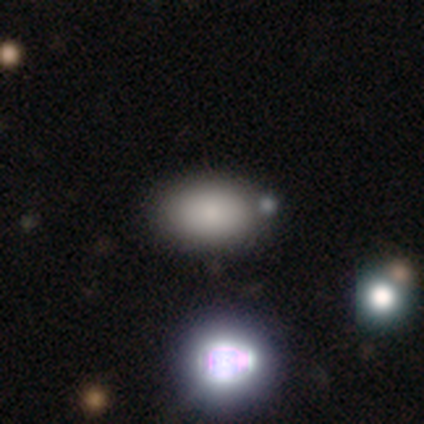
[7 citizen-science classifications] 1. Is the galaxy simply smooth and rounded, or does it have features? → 86% smooth, 14% star or artifact, 0% featured or disk.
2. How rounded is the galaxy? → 83% in between, 17% round, 0% cigar-shaped.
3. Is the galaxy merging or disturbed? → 100% none, 0% minor disturbance, 0% major disturbance, 0% merger.